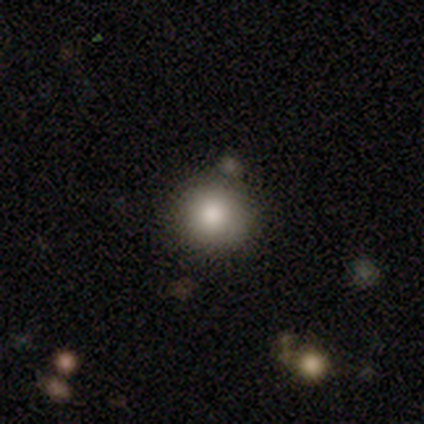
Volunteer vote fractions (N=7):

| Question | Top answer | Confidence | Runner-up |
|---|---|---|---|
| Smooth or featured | smooth | 57% | star or artifact (29%) |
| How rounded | round | 75% | in between (25%) |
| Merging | none | 60% | minor disturbance (20%) |